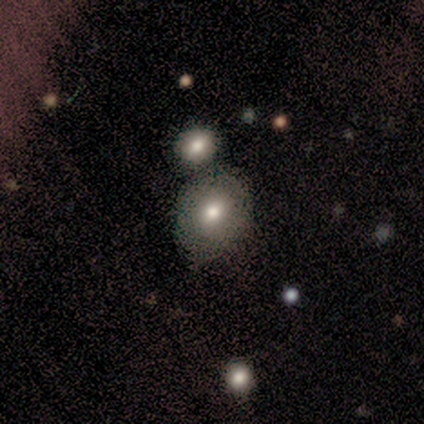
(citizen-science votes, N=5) Smooth or featured? 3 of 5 (60%) said smooth. How rounded? 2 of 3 (67%) said in between. Merging? 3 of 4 (75%) said minor disturbance.